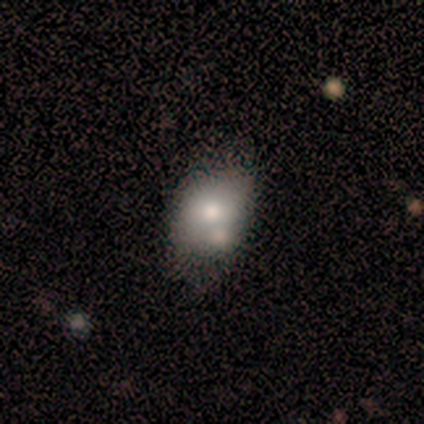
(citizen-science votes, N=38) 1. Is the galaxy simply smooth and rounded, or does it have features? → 63% smooth, 32% featured or disk, 5% star or artifact.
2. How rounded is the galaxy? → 88% in between, 12% round, 0% cigar-shaped.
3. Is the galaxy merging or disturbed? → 61% none, 19% merger, 11% minor disturbance, 8% major disturbance.